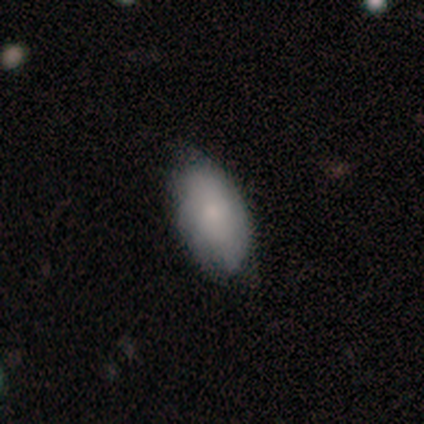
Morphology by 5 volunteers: Volunteers were most divided on "smooth or featured": smooth: 60%, featured or disk: 40%, star or artifact: 0%. More confident: how rounded — in between (100%); merging — none (80%).